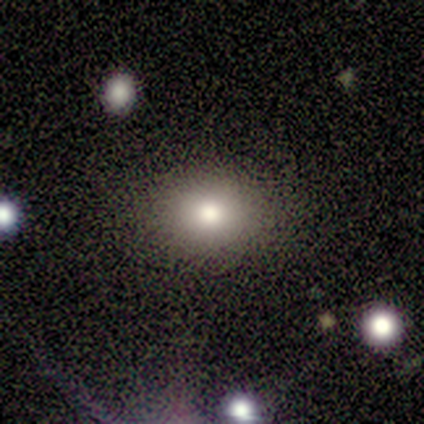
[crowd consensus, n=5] A smooth galaxy with no disk features (60%) that is round (100%). Merging: none (60%).